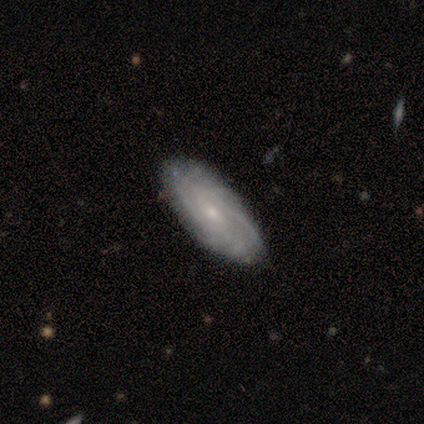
A featured or disk galaxy (75%) with no bar (67%), no spiral arms (67%) and a small central bulge (67%). Merging: none (100%).